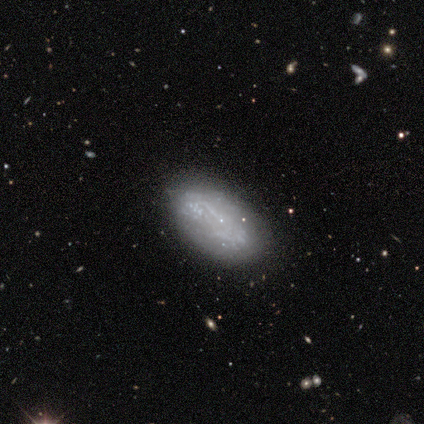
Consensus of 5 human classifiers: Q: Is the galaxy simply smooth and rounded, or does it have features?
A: featured or disk — 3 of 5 (60%).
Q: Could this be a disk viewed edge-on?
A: no — 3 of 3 (100%).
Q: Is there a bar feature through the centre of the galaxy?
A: no — 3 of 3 (100%).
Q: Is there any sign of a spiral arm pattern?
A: no — 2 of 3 (67%).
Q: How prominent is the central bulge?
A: none — 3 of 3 (100%).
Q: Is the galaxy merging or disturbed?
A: none — 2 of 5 (40%, tied with minor disturbance).